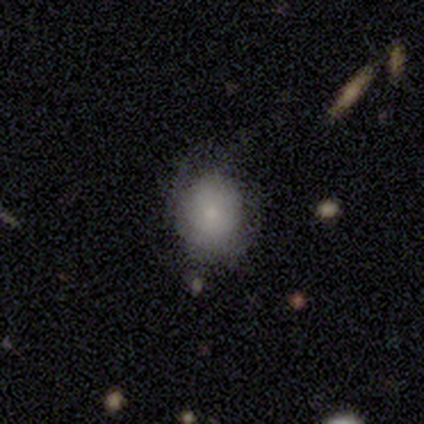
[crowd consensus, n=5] Smooth or featured? 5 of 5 (100%) said smooth. How rounded? 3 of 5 (60%) said round. Merging? 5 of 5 (100%) said minor disturbance.